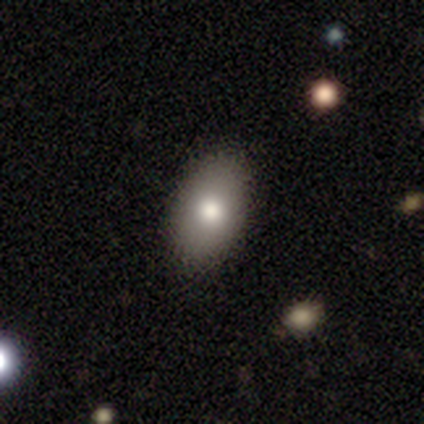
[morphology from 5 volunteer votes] smooth_or_featured: smooth (p=0.80) [alt: star or artifact p=0.20]
how_rounded: in between (p=1.00)
merging: none (p=1.00)